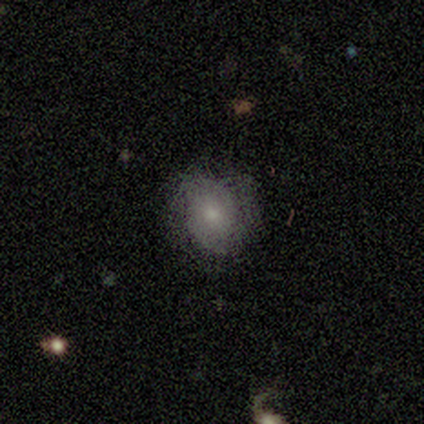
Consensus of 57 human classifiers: Overall: smooth (47%; featured or disk 44%). How rounded: round (74%). Merging: none (65%).